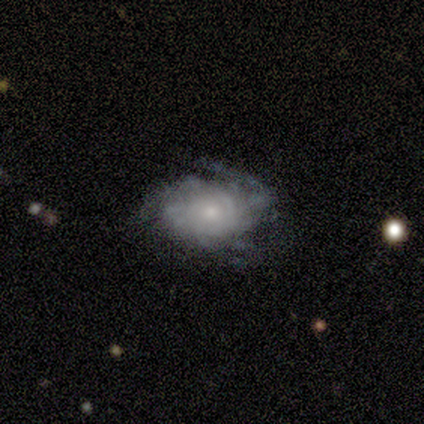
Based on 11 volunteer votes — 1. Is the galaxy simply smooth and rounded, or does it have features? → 82% featured or disk, 9% smooth, 9% star or artifact.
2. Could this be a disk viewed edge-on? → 100% no, 0% yes.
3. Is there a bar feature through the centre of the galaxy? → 78% no, 11% strong, 11% weak.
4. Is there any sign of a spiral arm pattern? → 78% yes, 22% no.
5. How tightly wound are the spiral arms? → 57% tight, 43% medium, 0% loose.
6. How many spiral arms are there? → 57% can't tell, 14% 2, 14% 3, 14% more than 4, 0% 1, 0% 4.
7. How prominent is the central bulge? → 89% small, 11% moderate, 0% dominant, 0% large, 0% none.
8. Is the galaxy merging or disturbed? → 60% none, 30% major disturbance, 10% minor disturbance, 0% merger.